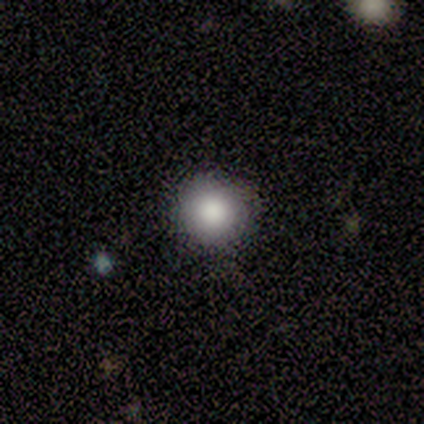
smooth_or_featured: smooth (p=0.86) [alt: star or artifact p=0.09]
how_rounded: round (p=0.96) [alt: in between p=0.04]
merging: none (p=0.63) [alt: minor disturbance p=0.04]